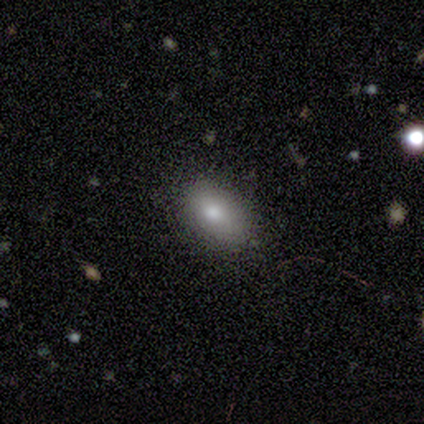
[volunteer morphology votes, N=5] Smooth or featured? 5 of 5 (100%) said smooth. How rounded? 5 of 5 (100%) said in between. Merging? 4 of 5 (80%) said none.